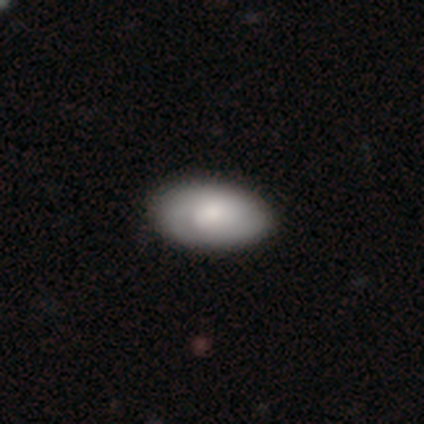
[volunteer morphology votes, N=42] This is possibly a smooth galaxy (60%). How rounded: clearly in between (96%). Merging: possibly none (45%).